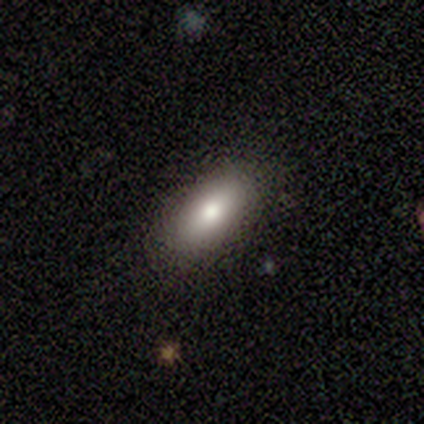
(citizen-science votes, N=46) Smooth or featured: smooth — 87% (featured or disk — 13%)
How rounded: in between — 85% (cigar-shaped — 15%)
Merging: none — 91% (minor disturbance — 7%)